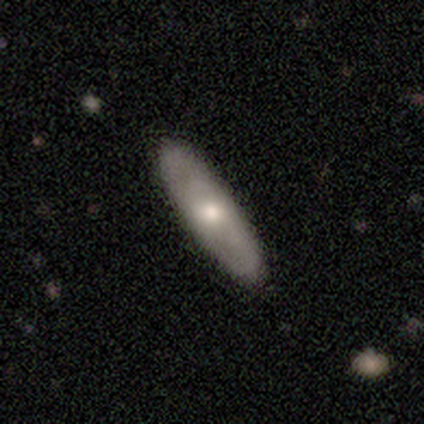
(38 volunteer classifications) A smooth galaxy with no disk features (61%) that is cigar-shaped (61%). Merging: none (89%).